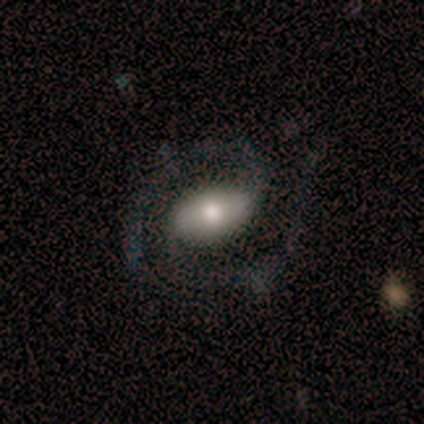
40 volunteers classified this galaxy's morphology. smooth_or_featured: featured or disk (p=0.75) [alt: smooth p=0.20]
disk_edge_on: no (p=1.00)
bar: weak (p=0.43) [alt: strong p=0.37]
has_spiral_arms: yes (p=0.97) [alt: no p=0.03]
spiral_winding: medium (p=0.38) [alt: tight p=0.31]
spiral_arm_count: 2 (p=0.79) [alt: 1 p=0.17]
bulge_size: moderate (p=0.67) [alt: large p=0.23]
merging: none (p=0.68) [alt: minor disturbance p=0.21]